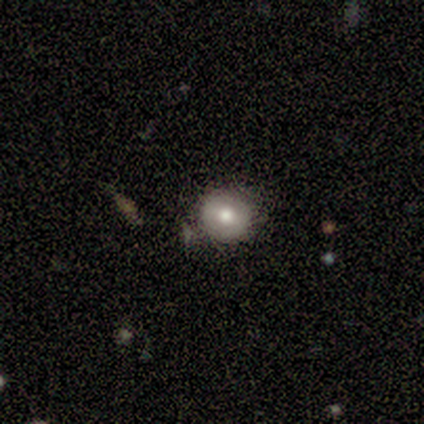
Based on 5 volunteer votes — Q: Smooth or featured?
A: smooth (80%); runner-up: featured or disk (20%)
Q: How rounded?
A: round (100%)
Q: Merging?
A: none (80%); runner-up: minor disturbance (20%)